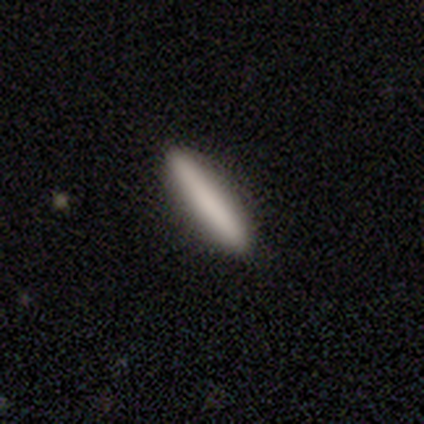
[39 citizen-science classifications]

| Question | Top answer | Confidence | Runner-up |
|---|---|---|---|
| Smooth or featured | smooth | 67% | featured or disk (21%) |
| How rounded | cigar-shaped | 96% | in between (4%) |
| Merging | none | 94% | minor disturbance (6%) |